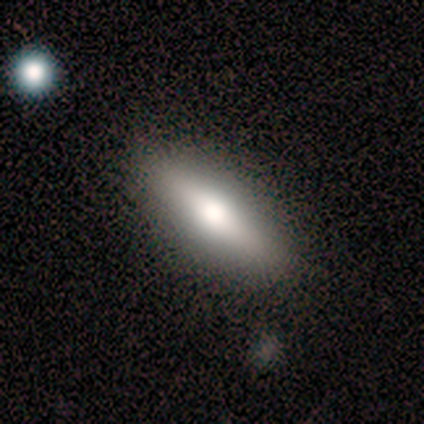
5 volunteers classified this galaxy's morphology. smooth_or_featured: featured or disk (p=0.60) [alt: smooth p=0.40]
disk_edge_on: yes (p=1.00)
edge_on_bulge: rounded (p=1.00)
merging: none (p=1.00)